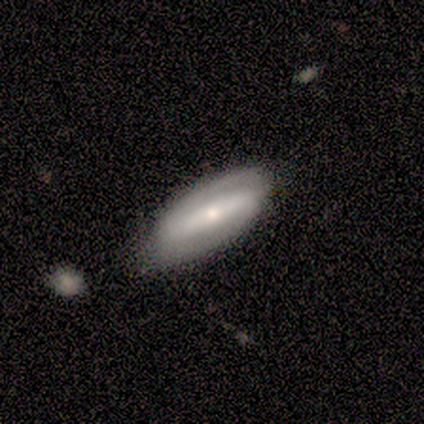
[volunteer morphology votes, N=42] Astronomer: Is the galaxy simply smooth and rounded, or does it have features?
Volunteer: featured or disk — 79%.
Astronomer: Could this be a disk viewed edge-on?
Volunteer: no — 88%.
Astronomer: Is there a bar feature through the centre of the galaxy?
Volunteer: strong — 69%.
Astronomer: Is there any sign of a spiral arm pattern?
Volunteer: yes — 55% (runner-up: no, 45%).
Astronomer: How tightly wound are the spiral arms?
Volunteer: tight — 44% (runner-up: medium, 38%).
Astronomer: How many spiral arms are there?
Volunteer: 2 — 81%.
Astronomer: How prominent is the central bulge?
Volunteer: moderate — 52% (runner-up: small, 48%).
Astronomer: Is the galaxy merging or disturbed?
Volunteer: none — 75%.